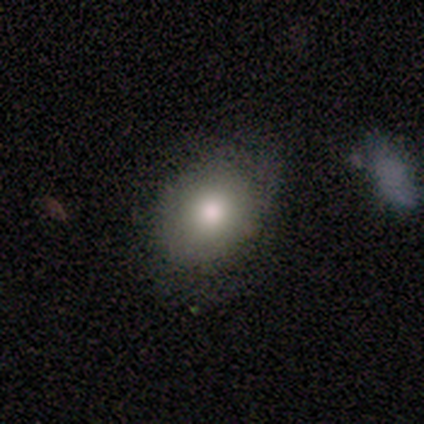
Smooth or featured?
  - smooth: 80% *
  - star or artifact: 20%
  - featured or disk: 0%
How rounded?
  - round: 50% * (tied)
  - in between: 50% * (tied)
  - cigar-shaped: 0%
Merging?
  - none: 100% *
  - minor disturbance: 0%
  - major disturbance: 0%
  - merger: 0%